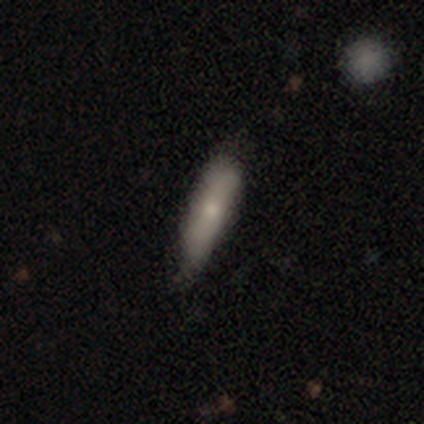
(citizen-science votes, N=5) Smooth or featured? smooth (60%)
How rounded? cigar-shaped (100%)
Merging? minor disturbance (60%)